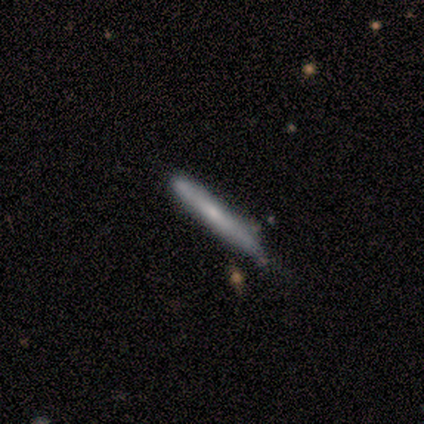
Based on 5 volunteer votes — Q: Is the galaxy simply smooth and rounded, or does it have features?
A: smooth — 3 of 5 (60%).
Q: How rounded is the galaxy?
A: cigar-shaped — 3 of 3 (100%).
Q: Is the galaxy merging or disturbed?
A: minor disturbance — 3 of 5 (60%).